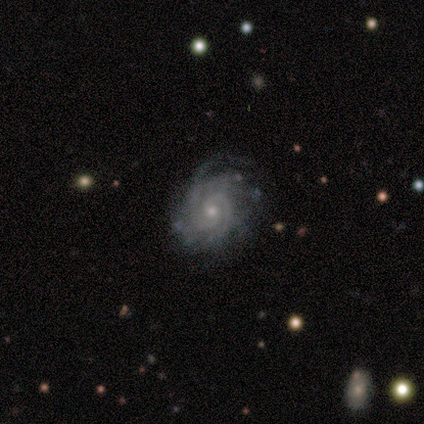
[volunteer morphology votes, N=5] Smooth or featured? 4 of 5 (80%) said featured or disk. Edge-on disk? 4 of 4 (100%) said no. Bar? 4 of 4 (100%) said no. Spiral arms? 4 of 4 (100%) said yes. Spiral winding? 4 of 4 (100%) said tight. Spiral arm count? 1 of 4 (25%, tied with 4, more than 4 and can't tell) said 2. Bulge size? 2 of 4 (50%) said moderate. Merging? 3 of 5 (60%) said minor disturbance.